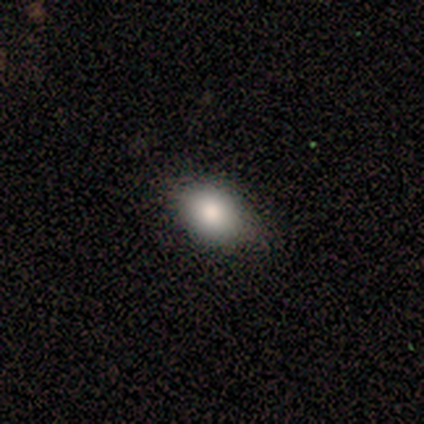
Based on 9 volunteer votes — smooth_or_featured: smooth (p=1.00)
how_rounded: in between (p=0.56) [alt: round p=0.44]
merging: none (p=1.00)